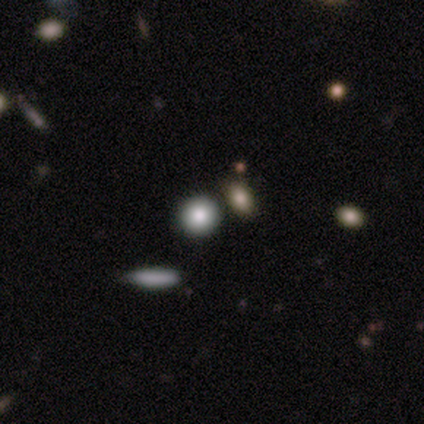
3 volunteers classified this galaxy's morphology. smooth-or-featured: smooth: 67% | featured or disk: 33% | star or artifact: 0%
  how-rounded: round: 100% | in between: 0% | cigar-shaped: 0%
  merging: none: 67% | merger: 33% | minor disturbance: 0% | major disturbance: 0%